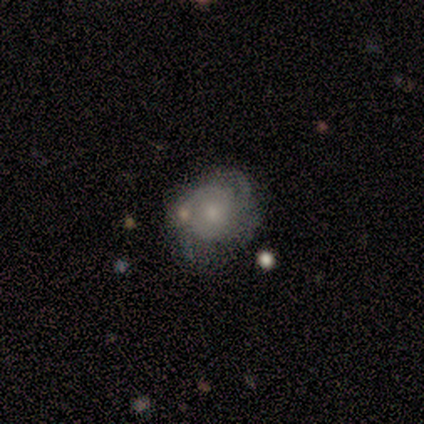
Smooth or featured?
  - smooth: 60% *
  - star or artifact: 40%
  - featured or disk: 0%
How rounded?
  - round: 100% *
  - in between: 0%
  - cigar-shaped: 0%
Merging?
  - none: 33% * (tied)
  - minor disturbance: 33% * (tied)
  - major disturbance: 33% * (tied)
  - merger: 0%